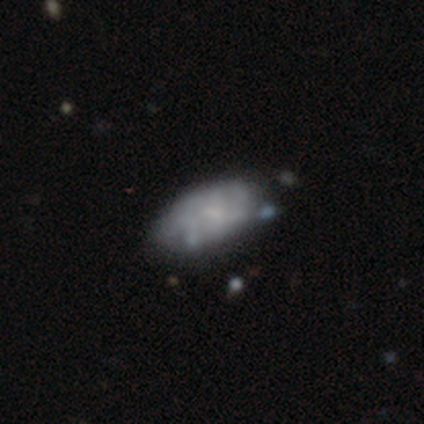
Smooth or featured? 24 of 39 (62%) said smooth. How rounded? 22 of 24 (92%) said in between. Merging? 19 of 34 (56%) said none.